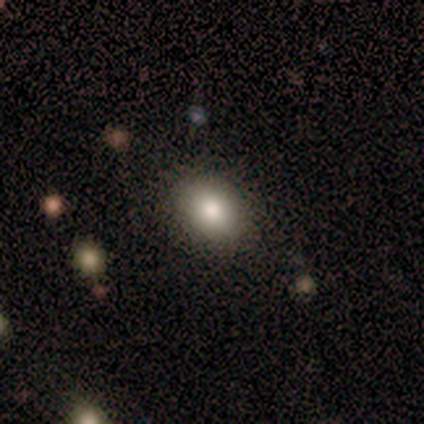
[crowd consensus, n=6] Smooth or featured: smooth — 83% (star or artifact — 17%)
How rounded: in between — 100%
Merging: none — 60% (minor disturbance — 20%)